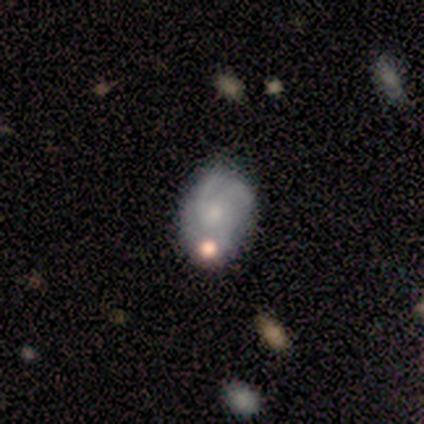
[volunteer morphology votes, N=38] smooth_or_featured: featured or disk (p=0.68) [alt: smooth p=0.26]
disk_edge_on: no (p=1.00)
bar: no (p=0.88) [alt: weak p=0.12]
has_spiral_arms: yes (p=0.88) [alt: no p=0.12]
spiral_winding: medium (p=0.48) [alt: tight p=0.35]
spiral_arm_count: 3 (p=0.65) [alt: can't tell p=0.22]
bulge_size: small (p=0.50) [alt: moderate p=0.38]
merging: none (p=0.64) [alt: minor disturbance p=0.22]